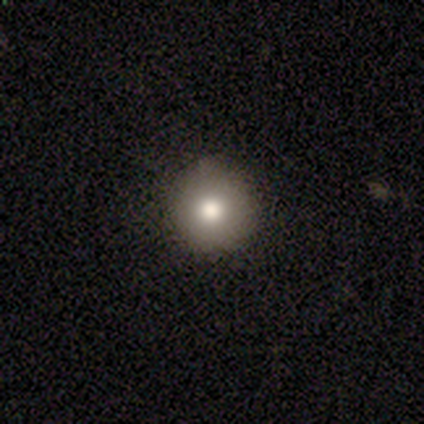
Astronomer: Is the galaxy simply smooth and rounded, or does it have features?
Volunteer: smooth — 59%.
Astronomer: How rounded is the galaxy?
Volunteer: round — 96%.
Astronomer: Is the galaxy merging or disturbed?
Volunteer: none — 96%.